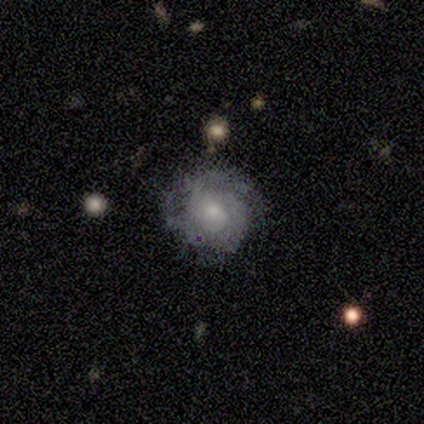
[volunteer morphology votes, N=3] This is marginally a smooth galaxy (33%, tied with featured or disk and star or artifact). How rounded: clearly round (100%). Merging: possibly none (50%, tied with minor disturbance).